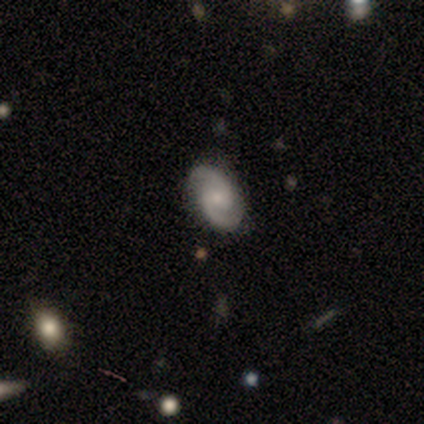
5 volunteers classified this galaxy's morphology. This is clearly a featured or disk galaxy (100%). It is clearly not viewed edge-on (100%). Bar: marginally weak (40%, tied with no). Spiral arm pattern: clearly yes (100%). Spiral arm count: clearly 2 (100%). Spiral winding: likely medium (60%). Central bulge: likely moderate (60%). Merging: clearly none (100%).